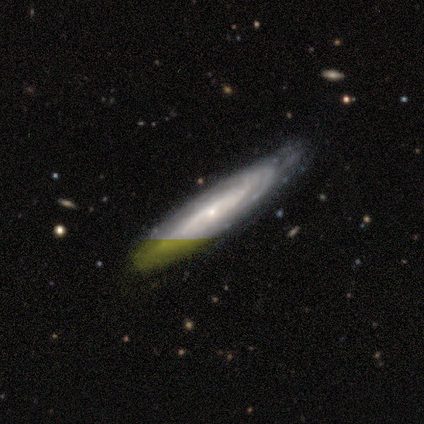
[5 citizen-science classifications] Smooth or featured: featured or disk — 80% (smooth — 20%)
Edge-on disk: yes — 50% (tied with no — 50%)
Edge-on bulge: rounded — 100%
Merging: none — 80% (minor disturbance — 20%)